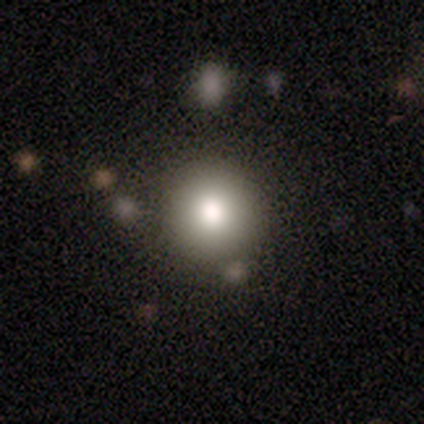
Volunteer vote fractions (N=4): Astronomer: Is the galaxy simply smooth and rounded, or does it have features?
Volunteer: featured or disk — 50%.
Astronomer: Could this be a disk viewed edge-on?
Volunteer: no — 100%.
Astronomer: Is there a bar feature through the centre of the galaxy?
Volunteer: no — 100%.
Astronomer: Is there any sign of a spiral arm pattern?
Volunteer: no — 100%.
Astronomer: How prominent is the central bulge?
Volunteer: large — 50%, tied with moderate at 50%.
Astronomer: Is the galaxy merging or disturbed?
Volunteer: none — 67%.